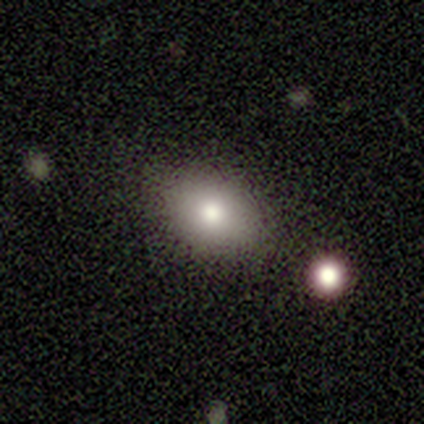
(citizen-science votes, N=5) smooth_or_featured: smooth (p=1.00)
how_rounded: in between (p=1.00)
merging: none (p=0.60) [alt: minor disturbance p=0.40]